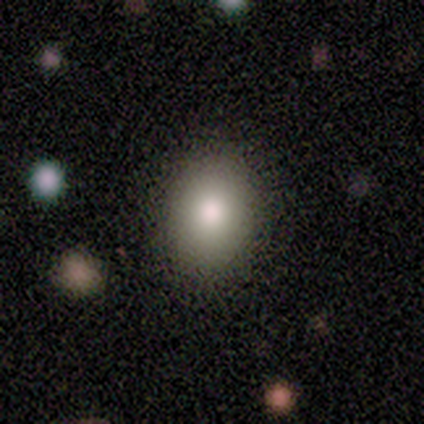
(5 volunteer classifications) Smooth or featured? 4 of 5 (80%) said smooth. How rounded? 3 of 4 (75%) said in between. Merging? 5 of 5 (100%) said none.